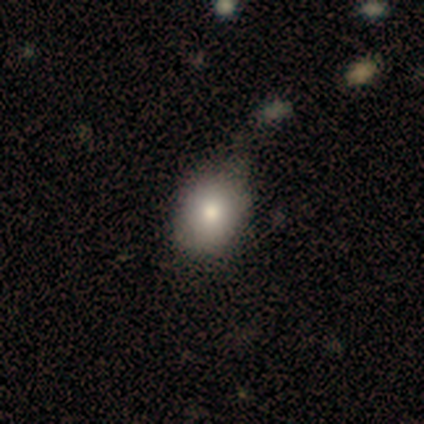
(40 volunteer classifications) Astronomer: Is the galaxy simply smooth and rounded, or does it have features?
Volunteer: smooth — 85%.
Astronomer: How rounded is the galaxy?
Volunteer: round — 59% (runner-up: in between, 41%).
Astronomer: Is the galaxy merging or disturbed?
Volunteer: none — 36% (runner-up: minor disturbance, 26%).